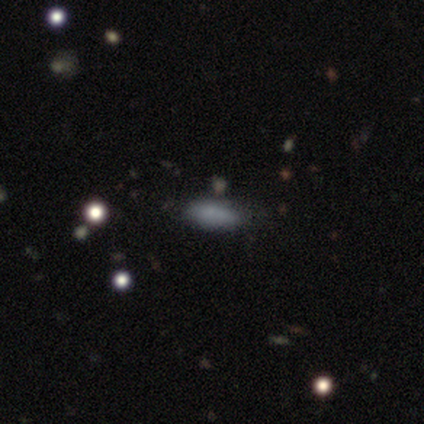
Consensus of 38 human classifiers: smooth_or_featured: smooth (p=0.84) [alt: star or artifact p=0.11]
how_rounded: in between (p=0.75) [alt: cigar-shaped p=0.25]
merging: none (p=0.74) [alt: minor disturbance p=0.24]